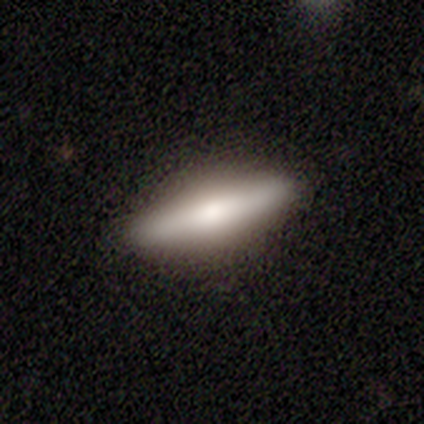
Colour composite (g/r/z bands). It shows a smooth galaxy with no disk features (50%, tied with featured or disk) that is cigar-shaped (100%). Merging: none (100%).